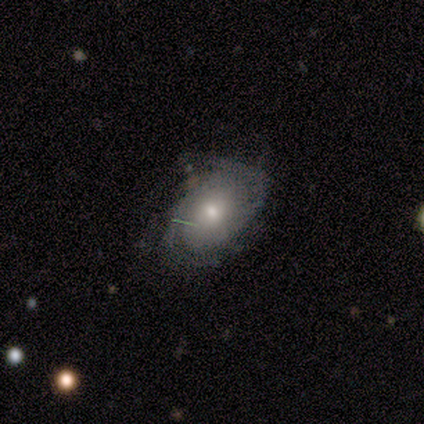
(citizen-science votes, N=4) This appears to be a featured or disk galaxy (100%) with no bar (100%), 2 (67%) medium (100%) spiral arms (100%) and a moderate central bulge (100%). Merging: minor disturbance (50%).